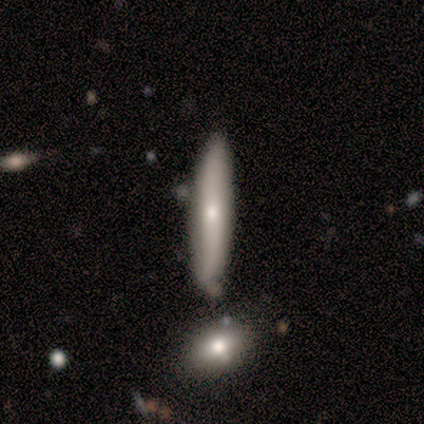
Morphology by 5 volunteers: A smooth galaxy with no disk features (80%) that is cigar-shaped (100%). Merging: minor disturbance (60%).